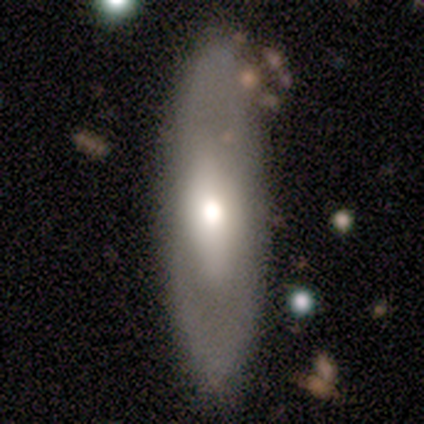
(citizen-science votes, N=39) Smooth or featured: smooth — 56% (featured or disk — 36%)
How rounded: in between — 64% (cigar-shaped — 32%)
Merging: none — 89% (merger — 8%)